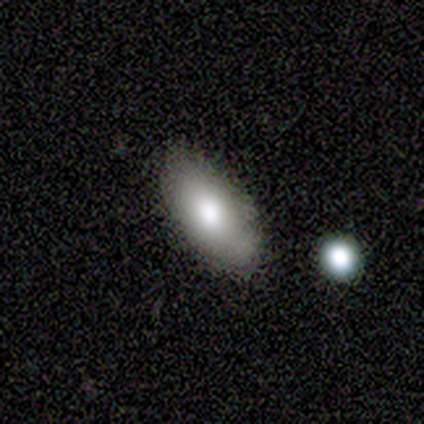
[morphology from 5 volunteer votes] smooth_or_featured: smooth (p=0.80) [alt: featured or disk p=0.20]
how_rounded: in between (p=1.00)
merging: none (p=0.80) [alt: minor disturbance p=0.20]